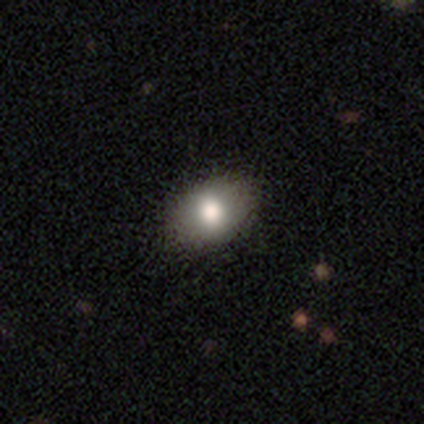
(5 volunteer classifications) Morphology: type=smooth (60%); roundness=in between (67%); merging=none (100%).